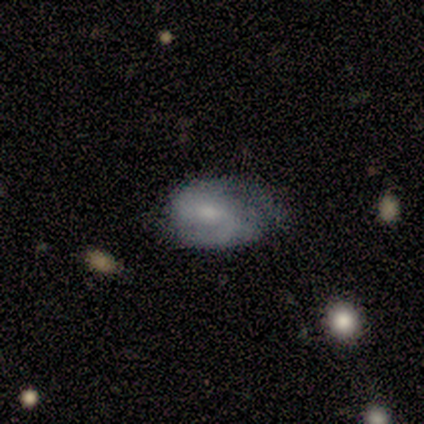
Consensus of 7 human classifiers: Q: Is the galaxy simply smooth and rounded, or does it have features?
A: featured or disk — 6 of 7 (86%).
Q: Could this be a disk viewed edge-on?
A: no — 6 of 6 (100%).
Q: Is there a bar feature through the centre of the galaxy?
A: weak — 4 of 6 (67%).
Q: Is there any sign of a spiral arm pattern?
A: yes — 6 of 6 (100%).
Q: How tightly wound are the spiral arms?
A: tight — 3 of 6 (50%).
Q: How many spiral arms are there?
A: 2 — 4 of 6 (67%).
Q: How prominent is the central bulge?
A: moderate — 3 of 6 (50%).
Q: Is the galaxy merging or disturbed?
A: none — 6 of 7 (86%).